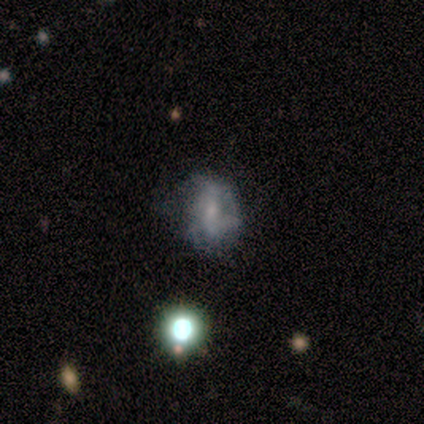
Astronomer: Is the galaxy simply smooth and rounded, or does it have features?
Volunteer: featured or disk — 80%.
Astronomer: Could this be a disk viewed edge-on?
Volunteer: no — 100%.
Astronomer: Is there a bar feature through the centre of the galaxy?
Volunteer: no — 75%.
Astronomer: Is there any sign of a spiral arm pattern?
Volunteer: no — 75%.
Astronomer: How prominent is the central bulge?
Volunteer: moderate — 50%, tied with small at 50%.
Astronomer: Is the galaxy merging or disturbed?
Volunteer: none — 40% (runner-up: minor disturbance, 20%).